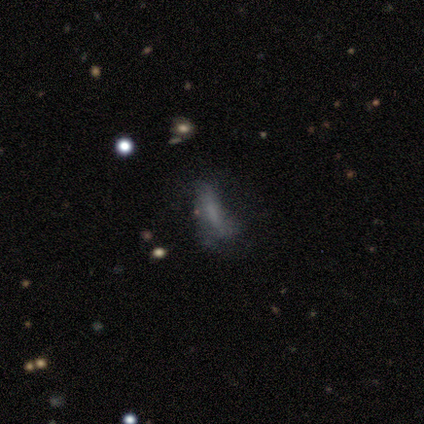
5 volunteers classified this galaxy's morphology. Smooth or featured?
  - smooth: 60% *
  - featured or disk: 40%
  - star or artifact: 0%
How rounded?
  - in between: 100% *
  - round: 0%
  - cigar-shaped: 0%
Merging?
  - minor disturbance: 60% *
  - none: 20%
  - major disturbance: 20%
  - merger: 0%